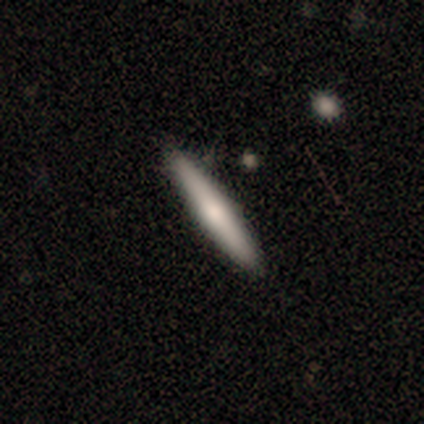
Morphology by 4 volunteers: smooth_or_featured: featured or disk (p=0.75) [alt: smooth p=0.25]
disk_edge_on: yes (p=1.00)
edge_on_bulge: rounded (p=1.00)
merging: none (p=1.00)